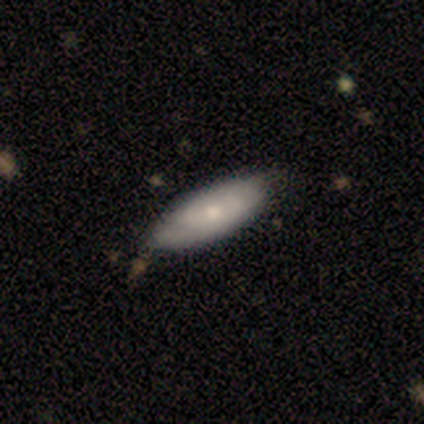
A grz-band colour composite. It shows a smooth galaxy with no disk features (50%, tied with featured or disk) that is in between round and cigar-shaped (100%). Merging: none (62%).